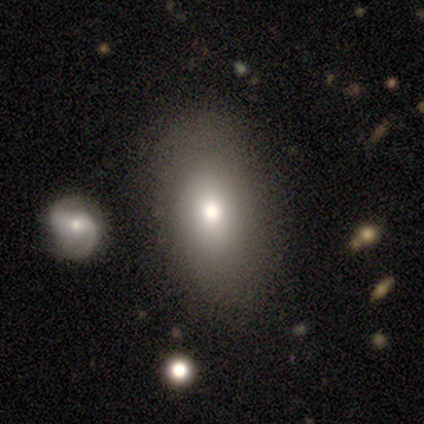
A featured or disk galaxy (50%) with no bar (100%), no spiral arms (100%) and a large central bulge (50%, tied with moderate).

Vote fractions:
- Smooth or featured? featured or disk: 50% / smooth: 33% / star or artifact: 17%
- Edge-on disk? no: 67% / yes: 33%
- Bar? no: 100% / strong: 0% / weak: 0%
- Spiral arms? no: 100% / yes: 0%
- Bulge size? large: 50% (tied) / moderate: 50% (tied) / dominant: 0% / small: 0% / none: 0%
- Merging? none: 60% / minor disturbance: 40% / major disturbance: 0% / merger: 0%